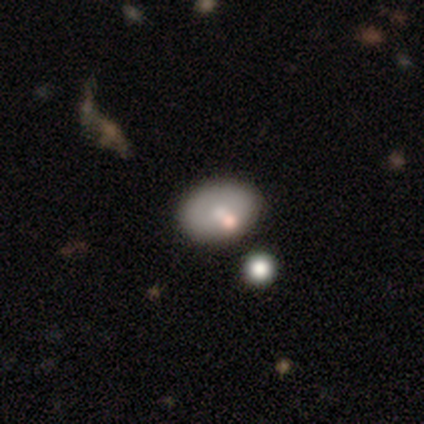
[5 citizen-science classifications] Smooth or featured?
  - smooth: 40% * (tied)
  - featured or disk: 40% * (tied)
  - star or artifact: 20%
How rounded?
  - round: 50% * (tied)
  - in between: 50% * (tied)
  - cigar-shaped: 0%
Merging?
  - none: 50% * (tied)
  - merger: 50% * (tied)
  - minor disturbance: 0%
  - major disturbance: 0%